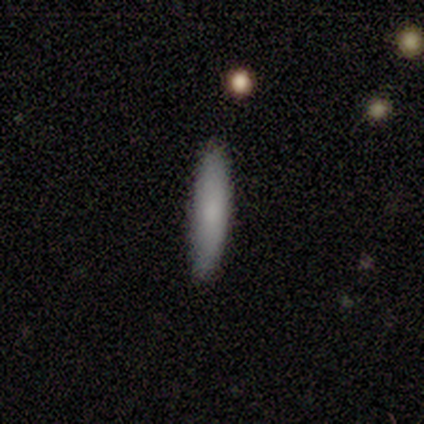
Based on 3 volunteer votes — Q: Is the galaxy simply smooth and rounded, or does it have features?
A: smooth — 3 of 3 (100%).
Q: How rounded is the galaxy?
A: cigar-shaped — 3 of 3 (100%).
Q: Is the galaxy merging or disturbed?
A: none — 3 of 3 (100%).